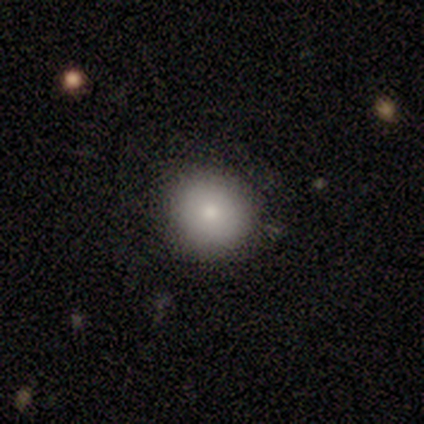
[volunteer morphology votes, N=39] type=smooth (90%); roundness=round (97%); merging=none (91%).